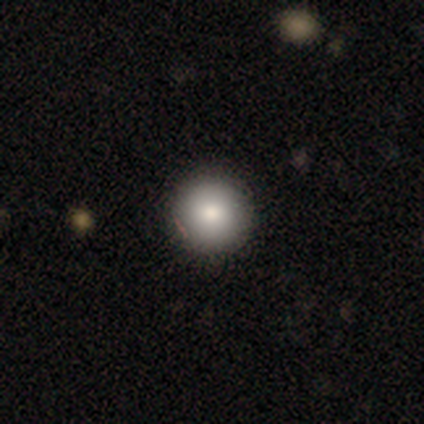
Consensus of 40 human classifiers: A smooth galaxy with no disk features (80%) that is round (97%).

Vote fractions:
- Smooth or featured? smooth: 80% / featured or disk: 15% / star or artifact: 5%
- How rounded? round: 97% / in between: 3% / cigar-shaped: 0%
- Merging? none: 68% / minor disturbance: 0% / major disturbance: 0% / merger: 0%